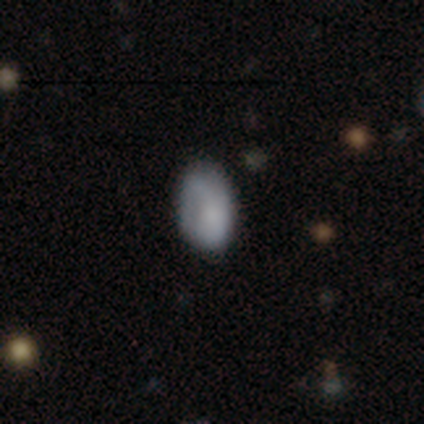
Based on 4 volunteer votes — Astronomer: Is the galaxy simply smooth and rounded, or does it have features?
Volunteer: smooth — 50%, tied with featured or disk at 50%.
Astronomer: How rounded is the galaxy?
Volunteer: in between — 100%.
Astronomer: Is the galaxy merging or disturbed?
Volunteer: none — 75%.